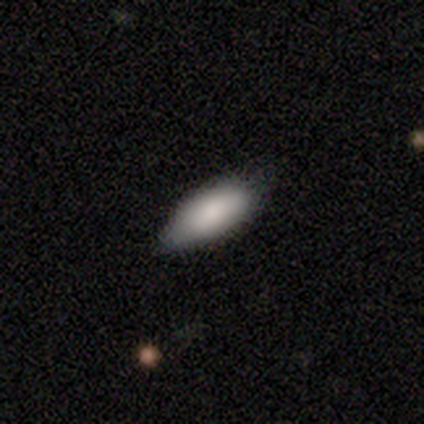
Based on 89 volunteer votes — This appears to be a smooth galaxy with no disk features (82%) that is in between round and cigar-shaped (85%). Merging: none (67%).